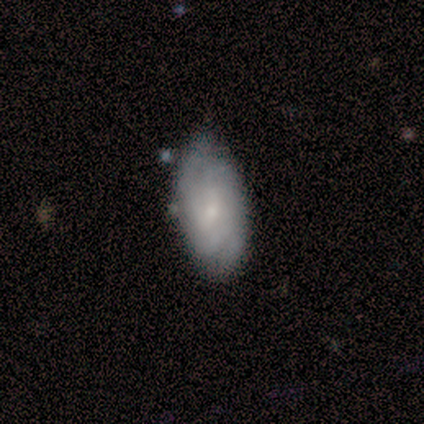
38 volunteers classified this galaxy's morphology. Overall: featured or disk (63%; smooth 34%). Edge-on disk: no (96%). Bar: no (78%). Spiral arms: yes (96%). Spiral arm count: can't tell (36%; 2 32%). Spiral winding: tight (77%). Bulge size: small (78%). Merging: none (65%; minor disturbance 32%).